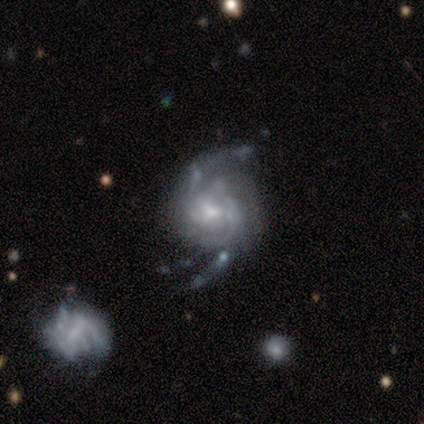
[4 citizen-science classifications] A featured or disk galaxy (100%) with no bar (100%), 2 (100%) medium (67%) spiral arms (75%) and a small central bulge (75%). Merging: none (50%, tied with minor disturbance).